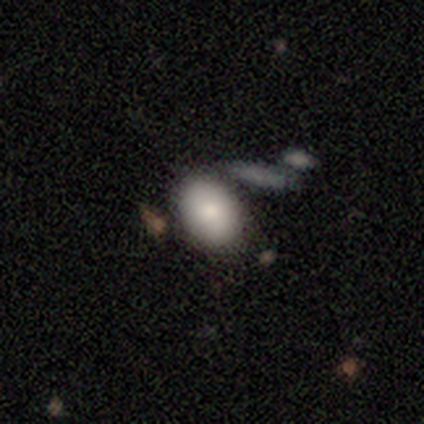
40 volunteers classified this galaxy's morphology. Volunteers were most divided on "merging": none: 62%, minor disturbance: 21%, merger: 18%, major disturbance: 0%. More confident: how rounded — in between (87%); smooth or featured — smooth (78%).